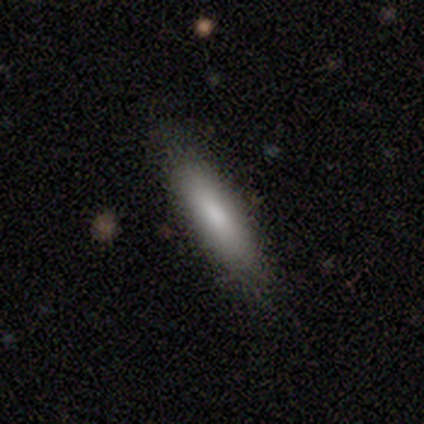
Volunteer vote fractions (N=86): Q: Smooth or featured?
A: smooth (78%); runner-up: featured or disk (14%)
Q: How rounded?
A: cigar-shaped (66%); runner-up: in between (34%)
Q: Merging?
A: none (85%); runner-up: minor disturbance (11%)